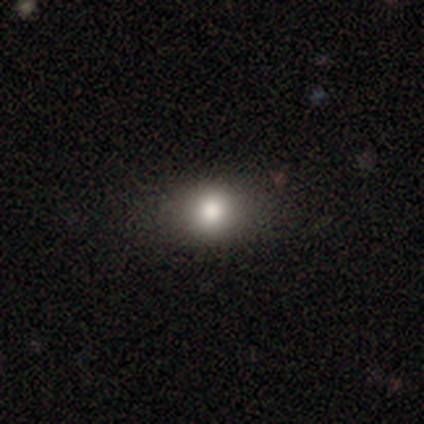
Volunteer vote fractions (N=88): Overall: smooth (75%). How rounded: in between (55%; round 45%). Merging: none (94%).